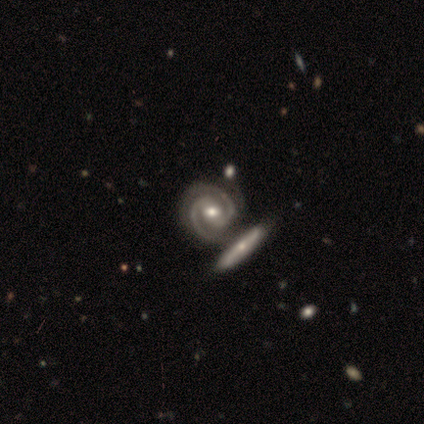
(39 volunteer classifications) smooth_or_featured: featured or disk (p=0.97) [alt: smooth p=0.03]
disk_edge_on: no (p=0.95) [alt: yes p=0.05]
bar: strong (p=0.39) [alt: weak p=0.36]
has_spiral_arms: yes (p=1.00)
spiral_winding: tight (p=0.64) [alt: medium p=0.36]
spiral_arm_count: 2 (p=0.92) [alt: 3 p=0.08]
bulge_size: moderate (p=0.78) [alt: small p=0.14]
merging: merger (p=0.51) [alt: none p=0.28]